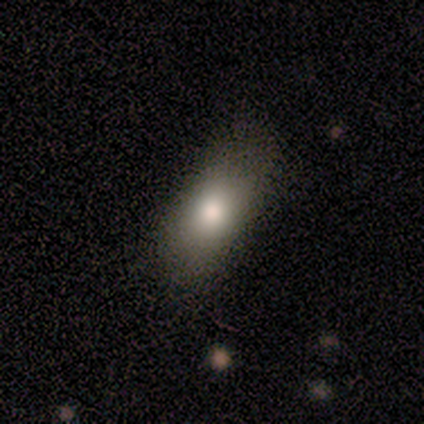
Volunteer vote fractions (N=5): smooth 80%, star or artifact 20%, featured or disk 0%. Down the decision tree: how rounded — in between (100%); merging — none (50%, tied with minor disturbance).